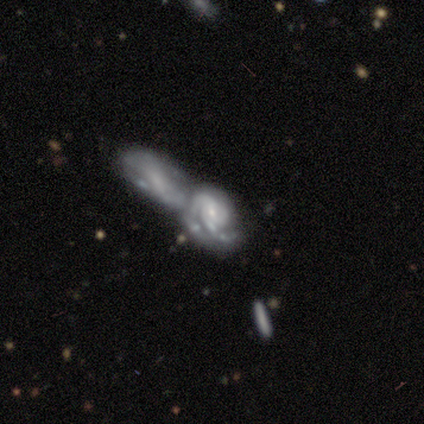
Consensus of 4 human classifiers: Smooth or featured: featured or disk — 50% (tied with star or artifact — 50%)
Edge-on disk: no — 100%
Bar: weak — 50% (tied with no — 50%)
Spiral arms: yes — 50% (tied with no — 50%)
Spiral winding: tight — 100%
Spiral arm count: more than 4 — 100%
Bulge size: small — 100%
Merging: merger — 100%